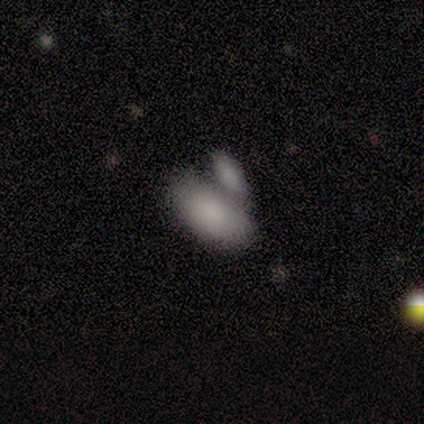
smooth-or-featured: smooth: 92% | star or artifact: 8% | featured or disk: 0%
  how-rounded: in between: 100% | round: 0% | cigar-shaped: 0%
  merging: merger: 64% | none: 36% | minor disturbance: 0% | major disturbance: 0%